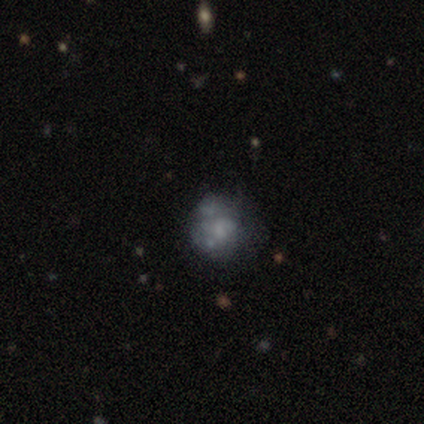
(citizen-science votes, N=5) Smooth or featured? 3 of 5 (60%) said smooth. How rounded? 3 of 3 (100%) said round. Merging? 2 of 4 (50%) said minor disturbance.